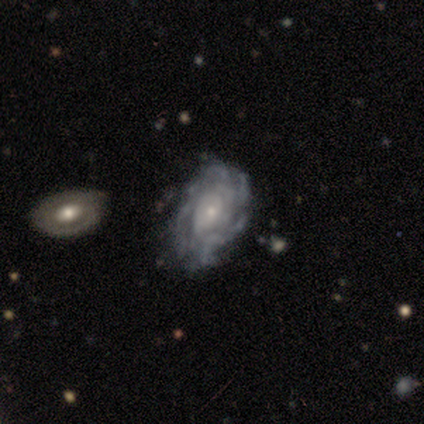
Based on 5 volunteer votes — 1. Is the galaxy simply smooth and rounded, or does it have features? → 100% featured or disk, 0% smooth, 0% star or artifact.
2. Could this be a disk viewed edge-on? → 80% no, 20% yes.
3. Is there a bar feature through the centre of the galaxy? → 75% no, 25% weak, 0% strong.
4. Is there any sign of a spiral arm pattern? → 75% yes, 25% no.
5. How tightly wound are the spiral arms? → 67% tight, 33% loose, 0% medium.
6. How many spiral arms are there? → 100% can't tell, 0% 1, 0% 2, 0% 3, 0% 4, 0% more than 4.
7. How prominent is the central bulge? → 75% small, 25% moderate, 0% dominant, 0% large, 0% none.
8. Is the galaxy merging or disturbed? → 80% none, 20% minor disturbance, 0% major disturbance, 0% merger.